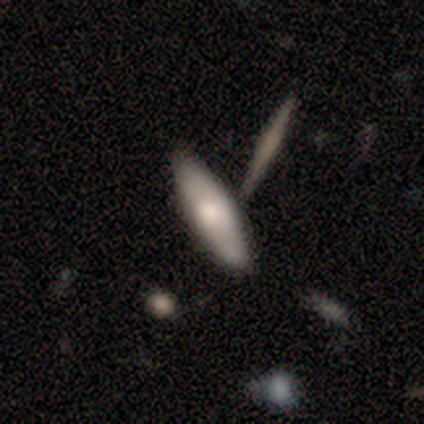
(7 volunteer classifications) Smooth or featured? 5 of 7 (71%) said smooth. How rounded? 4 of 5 (80%) said cigar-shaped. Merging? 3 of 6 (50%) said none.